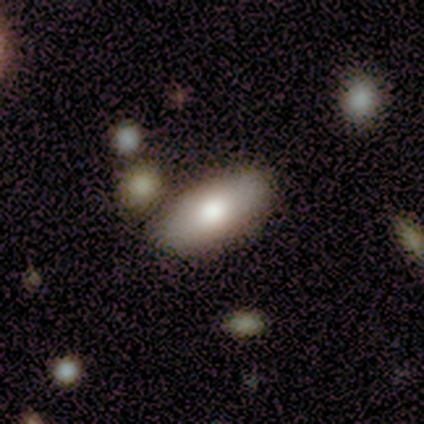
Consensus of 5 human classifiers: A smooth galaxy with no disk features (100%) that is in between round and cigar-shaped (100%).

Vote fractions:
- Smooth or featured? smooth: 100% / featured or disk: 0% / star or artifact: 0%
- How rounded? in between: 100% / round: 0% / cigar-shaped: 0%
- Merging? none: 100% / minor disturbance: 0% / major disturbance: 0% / merger: 0%